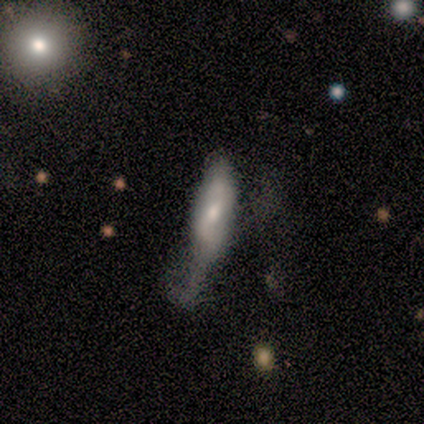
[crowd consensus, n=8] Morphology: type=smooth (50%); roundness=cigar-shaped (75%); merging=minor disturbance (57%).